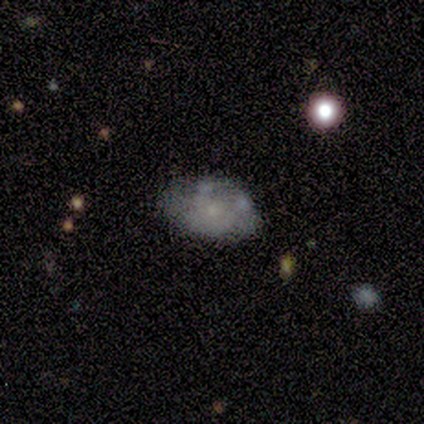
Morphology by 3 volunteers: Volunteers were most divided on "smooth or featured": smooth: 67%, featured or disk: 33%, star or artifact: 0%. More confident: how rounded — in between (100%); merging — none (100%).